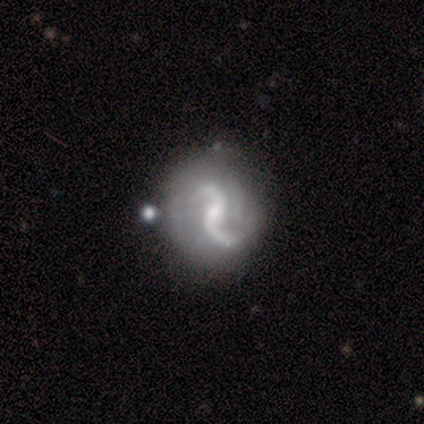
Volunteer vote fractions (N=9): Morphology: type=featured or disk (100%); edge-on=no (100%); bar=no (56%); spiral arms=yes (100%); winding=loose (78%); arm count=2 (78%); bulge=small (56%); merging=none (67%).